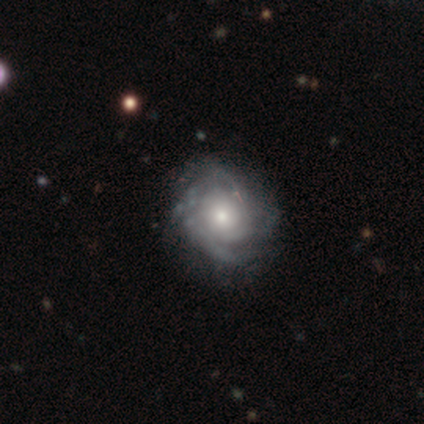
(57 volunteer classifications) Smooth or featured? 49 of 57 (86%) said featured or disk. Edge-on disk? 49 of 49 (100%) said no. Bar? 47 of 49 (96%) said no. Spiral arms? 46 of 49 (94%) said yes. Spiral winding? 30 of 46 (65%) said tight. Spiral arm count? 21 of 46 (46%) said can't tell. Bulge size? 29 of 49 (59%) said moderate. Merging? 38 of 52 (73%) said none.